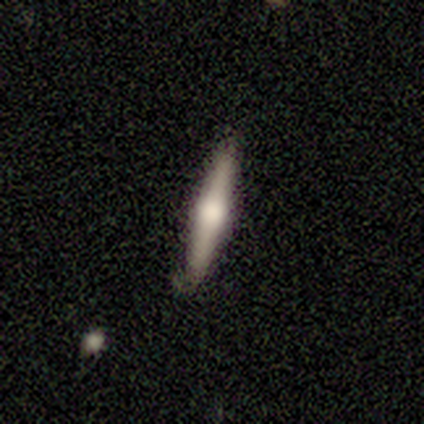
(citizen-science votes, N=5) Overall: featured or disk (100%). Edge-on disk: yes (100%). Edge-on bulge: rounded (100%). Merging: none (80%).